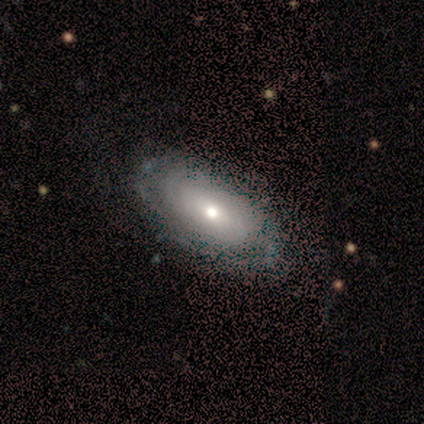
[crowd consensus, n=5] featured or disk 100%, smooth 0%, star or artifact 0%. Down the decision tree: edge-on disk — no (100%); bar — no (80%); spiral arms — yes (60%); spiral arm count — can't tell (100%); spiral winding — tight (100%); bulge size — moderate (60%); merging — none (100%).